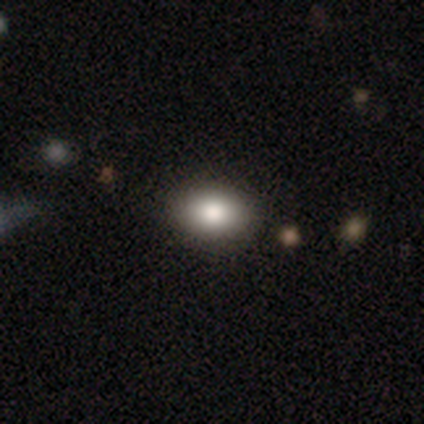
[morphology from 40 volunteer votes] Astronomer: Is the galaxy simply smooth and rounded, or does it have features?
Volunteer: smooth — 85%.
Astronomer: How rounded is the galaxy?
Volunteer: in between — 76%.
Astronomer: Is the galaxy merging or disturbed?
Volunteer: none — 60%.